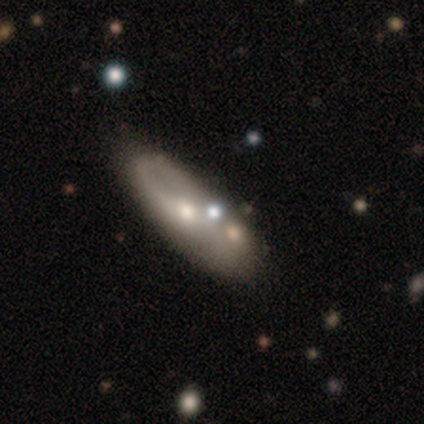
Smooth or featured? featured or disk (60%)
Edge-on disk? no (67%)
Bar? weak (50%, tied with no)
Spiral arms? yes (100%)
Spiral winding? medium (100%)
Spiral arm count? 1 (50%, tied with 2)
Bulge size? moderate (100%)
Merging? none (75%)